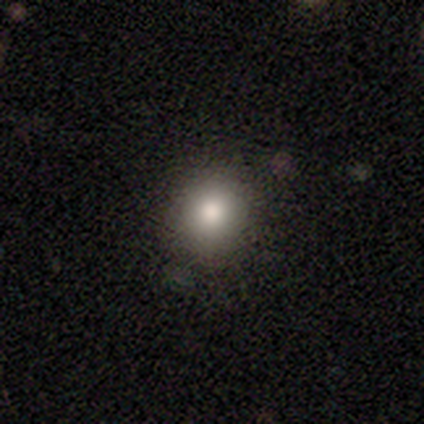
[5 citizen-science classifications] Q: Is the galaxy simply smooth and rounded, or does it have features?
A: smooth — 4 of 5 (80%).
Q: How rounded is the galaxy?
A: round — 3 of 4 (75%).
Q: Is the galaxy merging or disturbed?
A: none — 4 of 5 (80%).